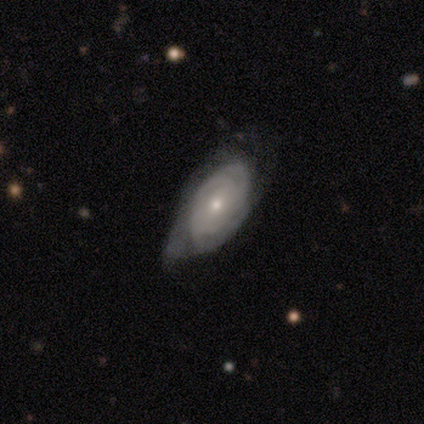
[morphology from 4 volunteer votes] Q: Smooth or featured?
A: featured or disk (75%); runner-up: smooth (25%)
Q: Edge-on disk?
A: no (100%)
Q: Bar?
A: no (100%)
Q: Spiral arms?
A: yes (100%)
Q: Spiral winding?
A: tight (100%)
Q: Spiral arm count?
A: 3 (33%); tied with: 4 (33%); can't tell (33%)
Q: Bulge size?
A: small (67%); runner-up: moderate (33%)
Q: Merging?
A: minor disturbance (75%); runner-up: none (25%)